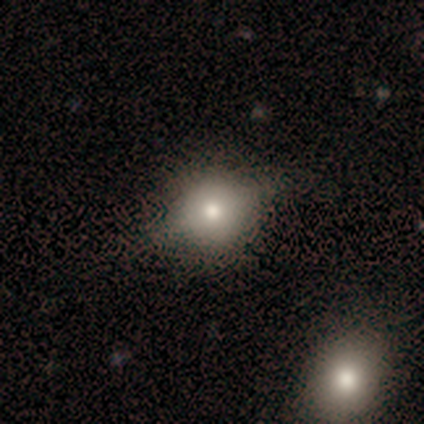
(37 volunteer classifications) Smooth or featured: smooth — 57% (featured or disk — 24%)
How rounded: round — 76% (in between — 24%)
Merging: none — 67% (major disturbance — 17%)